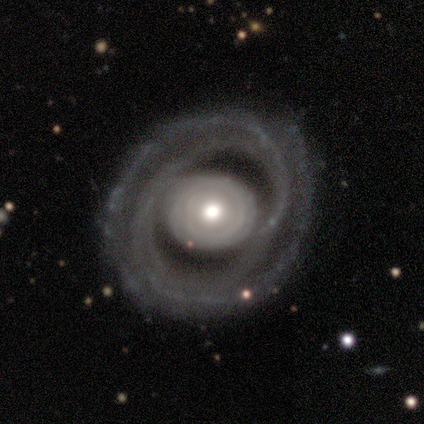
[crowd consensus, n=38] Morphology: type=featured or disk (68%); edge-on=no (96%); bar=no (88%); spiral arms=yes (72%); winding=tight (67%); arm count=2 (78%); bulge=moderate (60%); merging=none (76%).